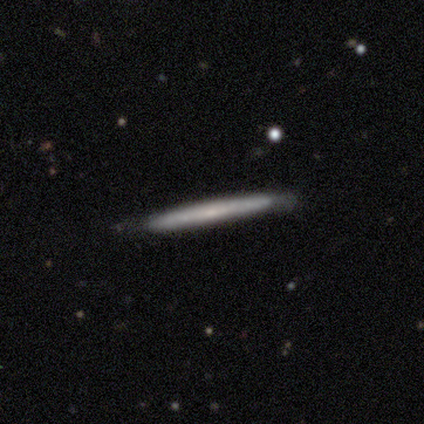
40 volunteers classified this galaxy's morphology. Q: Smooth or featured?
A: featured or disk (55%); runner-up: smooth (40%)
Q: Edge-on disk?
A: yes (86%); runner-up: no (14%)
Q: Edge-on bulge?
A: none (74%); runner-up: rounded (16%)
Q: Merging?
A: none (84%); runner-up: minor disturbance (16%)